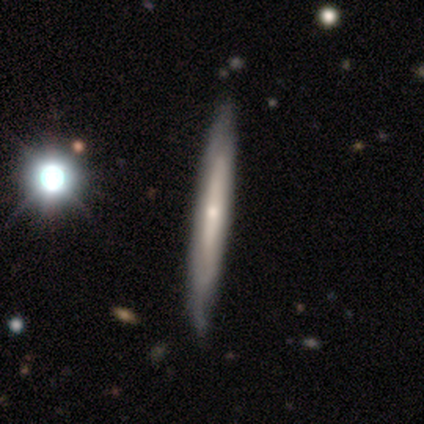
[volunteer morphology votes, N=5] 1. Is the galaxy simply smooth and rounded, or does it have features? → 80% featured or disk, 20% smooth, 0% star or artifact.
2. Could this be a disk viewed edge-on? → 100% yes, 0% no.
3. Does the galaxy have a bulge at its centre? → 75% rounded, 25% none, 0% boxy.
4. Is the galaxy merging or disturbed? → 80% none, 20% major disturbance, 0% minor disturbance, 0% merger.